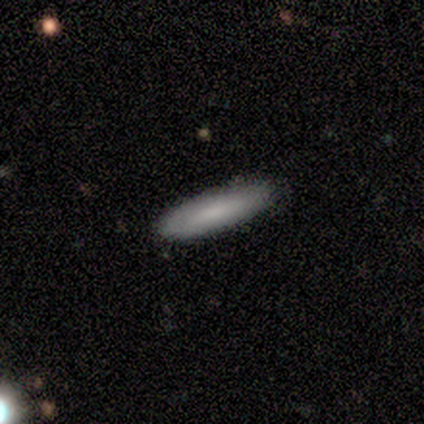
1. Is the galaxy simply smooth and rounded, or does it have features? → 75% smooth, 25% featured or disk, 0% star or artifact.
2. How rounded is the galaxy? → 67% in between, 33% cigar-shaped, 0% round.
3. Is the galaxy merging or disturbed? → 100% none, 0% minor disturbance, 0% major disturbance, 0% merger.